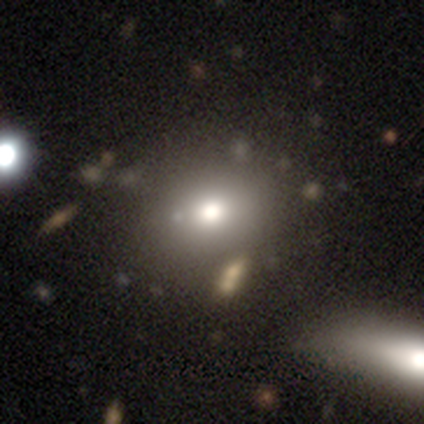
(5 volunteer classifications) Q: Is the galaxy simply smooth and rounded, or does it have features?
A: star or artifact — 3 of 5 (60%).